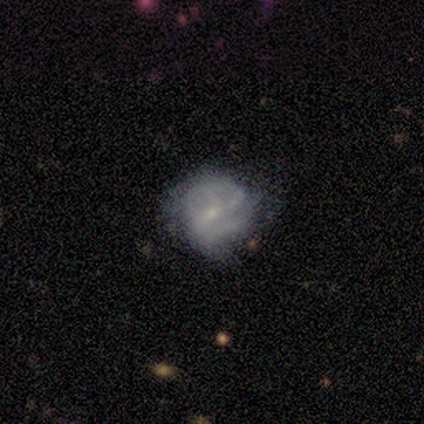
Smooth or featured? smooth (60%)
How rounded? round (100%)
Merging? minor disturbance (80%)